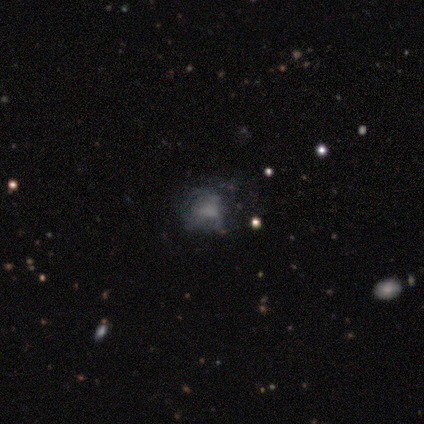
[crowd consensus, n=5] A featured or disk galaxy (60%) with no bar (67%), no spiral arms (67%) and no central bulge (67%). Merging: none (50%).